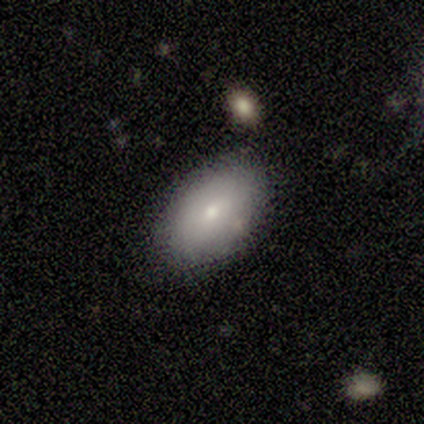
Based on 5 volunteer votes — Overall: smooth (80%). How rounded: in between (75%). Merging: none (100%).